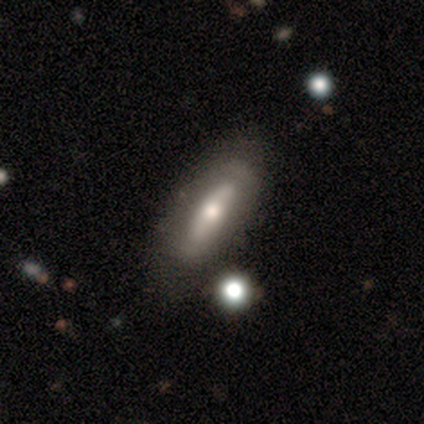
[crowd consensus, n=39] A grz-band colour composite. It shows a featured or disk galaxy (59%) with no bar (71%), no spiral arms (71%) and a moderate central bulge (82%). Merging: none (81%).